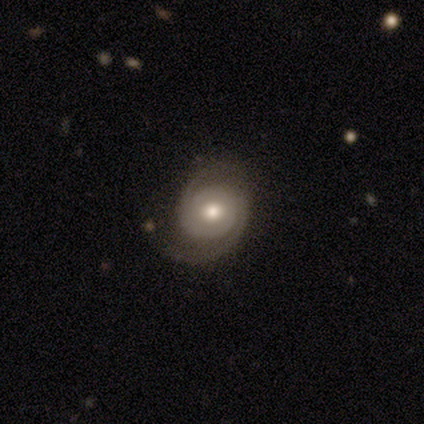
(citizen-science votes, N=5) Q: Smooth or featured?
A: featured or disk (80%); runner-up: star or artifact (20%)
Q: Edge-on disk?
A: no (100%)
Q: Bar?
A: no (100%)
Q: Spiral arms?
A: yes (50%); tied with: no (50%)
Q: Spiral winding?
A: tight (100%)
Q: Spiral arm count?
A: 2 (100%)
Q: Bulge size?
A: moderate (100%)
Q: Merging?
A: none (50%); tied with: major disturbance (50%)